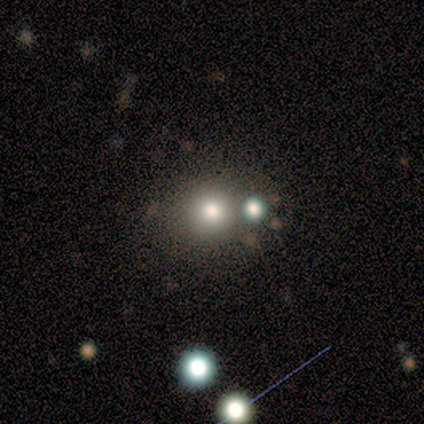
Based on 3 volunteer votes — Morphology: type=smooth (33%, tied with featured or disk and star or artifact); roundness=round (100%); merging=none (100%).